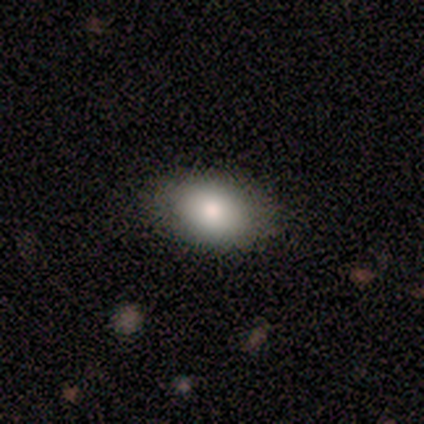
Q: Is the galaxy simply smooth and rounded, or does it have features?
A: smooth — 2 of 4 (50%, tied with featured or disk).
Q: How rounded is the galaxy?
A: in between — 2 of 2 (100%).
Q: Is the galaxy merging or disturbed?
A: none — 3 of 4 (75%).